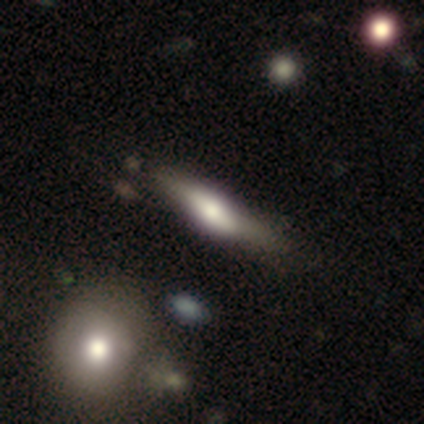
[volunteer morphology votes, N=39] Smooth or featured? featured or disk (51%)
Edge-on disk? yes (95%)
Edge-on bulge? rounded (74%)
Merging? none (34%)